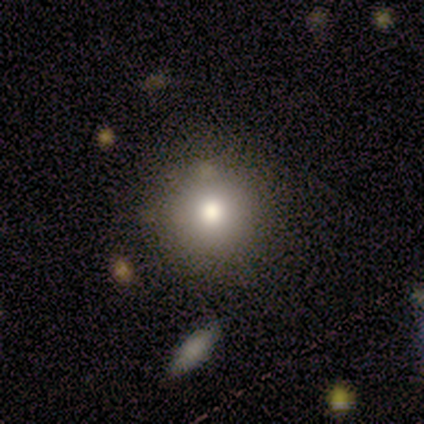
Q: Smooth or featured?
A: smooth (40%); tied with: star or artifact (40%)
Q: How rounded?
A: round (100%)
Q: Merging?
A: none (100%)